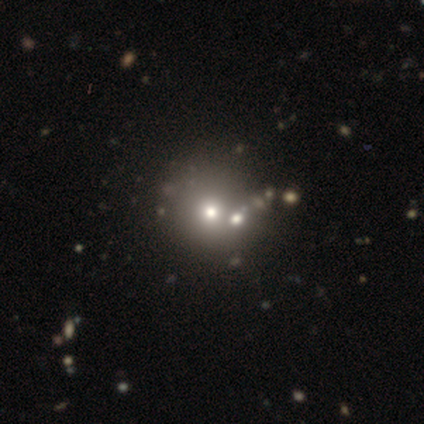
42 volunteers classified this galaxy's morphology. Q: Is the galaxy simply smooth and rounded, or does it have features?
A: smooth — 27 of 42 (64%).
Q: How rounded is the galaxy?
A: round — 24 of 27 (89%).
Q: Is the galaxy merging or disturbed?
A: none — 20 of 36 (56%).